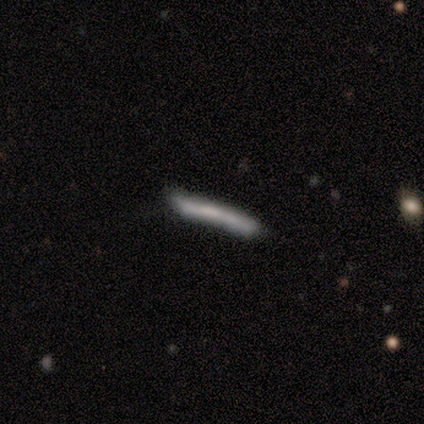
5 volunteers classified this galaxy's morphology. Smooth or featured? 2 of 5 (40%, tied with featured or disk) said smooth. How rounded? 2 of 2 (100%) said cigar-shaped. Merging? 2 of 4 (50%) said none.